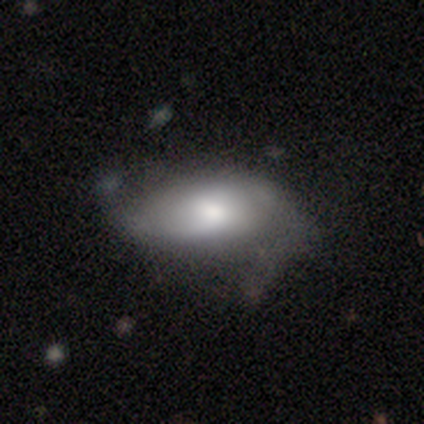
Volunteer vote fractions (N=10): This is likely a featured or disk galaxy (70%). It is likely not viewed edge-on (71%). Bar: likely weak (60%). Spiral arm pattern: likely yes (60%). Spiral arm count: likely 2 (67%). Spiral winding: marginally tight (33%, tied with medium and loose). Central bulge: likely small (60%). Merging: marginally none (44%).